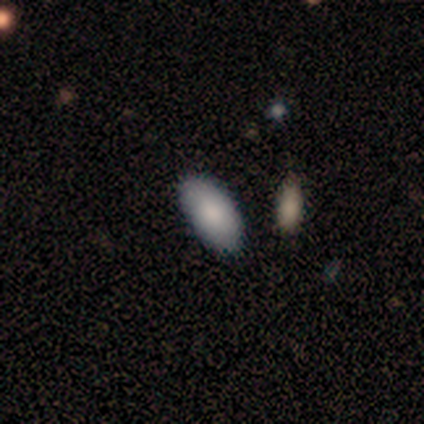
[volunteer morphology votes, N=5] type=smooth (60%); roundness=in between (100%); merging=none (67%).